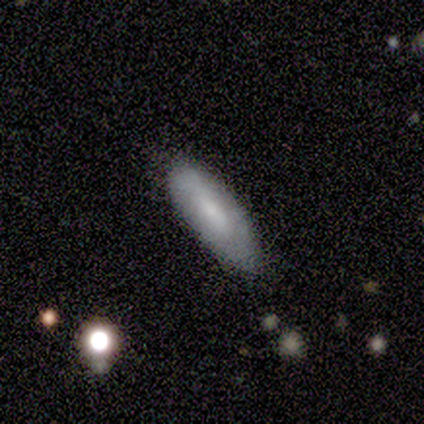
featured or disk 60%, smooth 40%, star or artifact 0%. Down the decision tree: edge-on disk — no (67%); bar — no (100%); spiral arms — no (100%); bulge size — small (50%, tied with none); merging — none (80%).